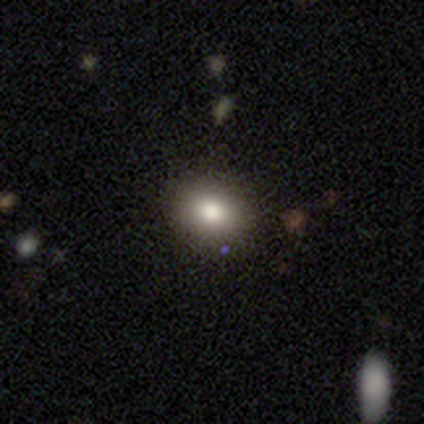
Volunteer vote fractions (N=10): Smooth or featured? smooth (80%)
How rounded? round (62%)
Merging? none (100%)